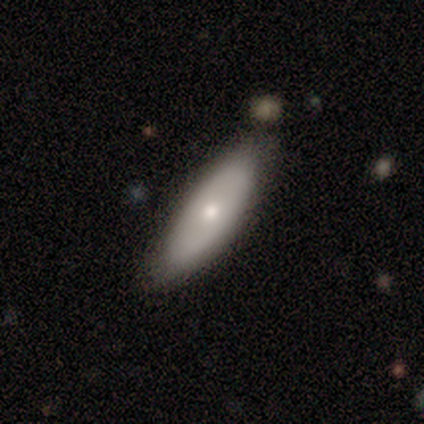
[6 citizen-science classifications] A smooth galaxy with no disk features (83%) that is in between round and cigar-shaped (80%). Merging: none (67%).